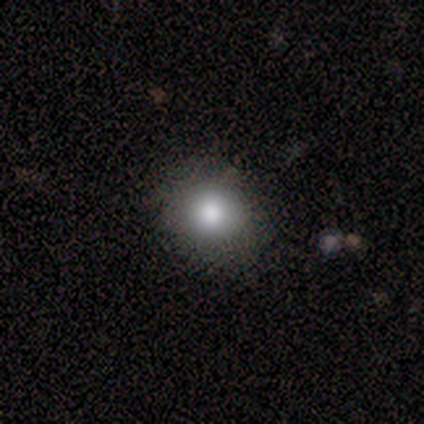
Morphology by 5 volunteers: smooth 100%, featured or disk 0%, star or artifact 0%. Down the decision tree: how rounded — round (80%); merging — none (100%).